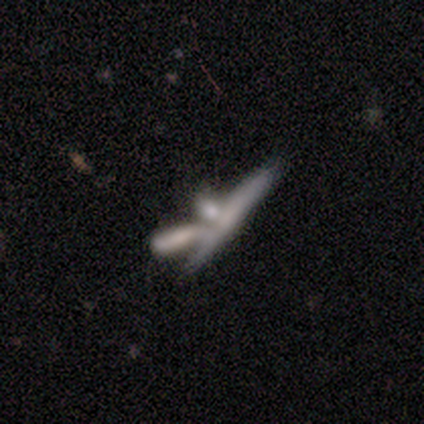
Volunteers were most divided on "smooth or featured": featured or disk: 51%, smooth: 38%, star or artifact: 10%. More confident: edge-on disk — yes (65%); merging — merger (60%); edge-on bulge — none (54%).